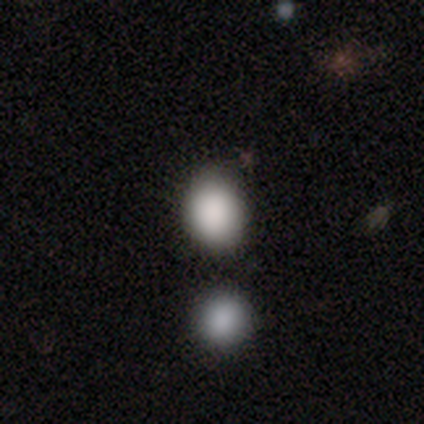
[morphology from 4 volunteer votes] smooth_or_featured: smooth (p=1.00)
how_rounded: round (p=0.75) [alt: in between p=0.25]
merging: none (p=1.00)